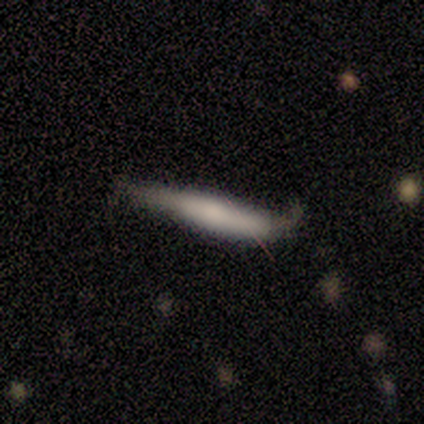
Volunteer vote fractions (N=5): A smooth galaxy with no disk features (80%) that is cigar-shaped (100%).

Vote fractions:
- Smooth or featured? smooth: 80% / featured or disk: 20% / star or artifact: 0%
- How rounded? cigar-shaped: 100% / round: 0% / in between: 0%
- Merging? minor disturbance: 80% / none: 20% / major disturbance: 0% / merger: 0%